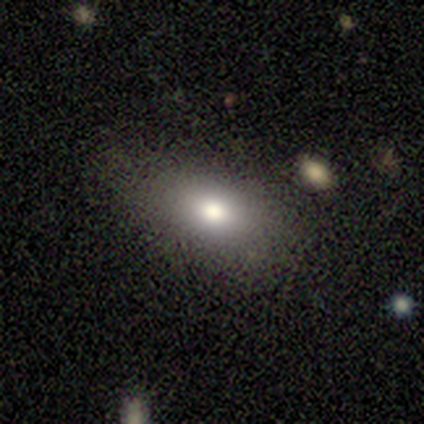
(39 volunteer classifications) A smooth galaxy with no disk features (72%) that is in between round and cigar-shaped (86%). Merging: none (80%).